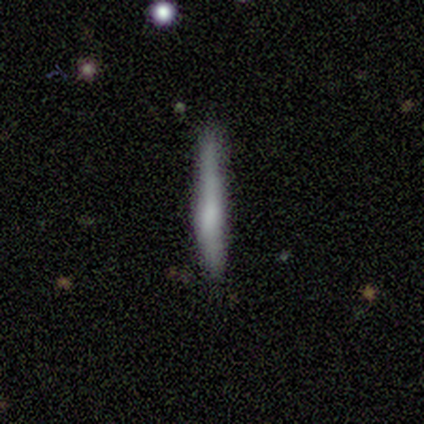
This is likely a featured or disk galaxy (62%). It is clearly viewed edge-on (100%). Edge-on bulge: likely rounded (62%). Merging: likely none (67%).